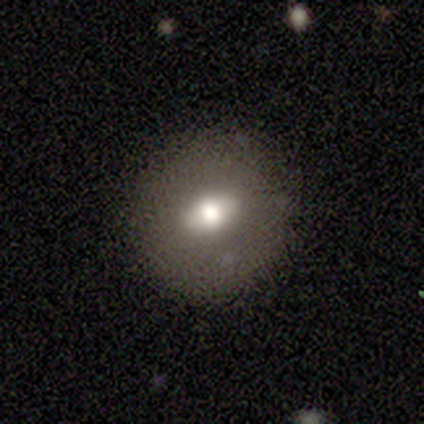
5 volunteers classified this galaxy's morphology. type=star or artifact (60%).